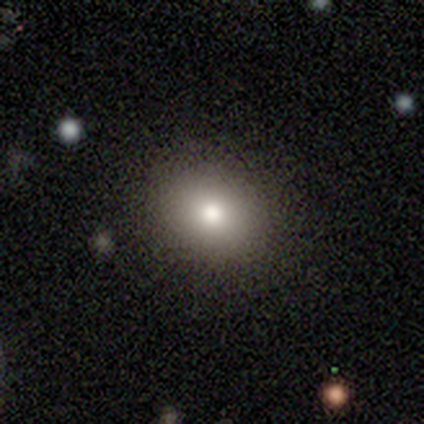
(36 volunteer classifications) Overall: smooth (83%). How rounded: round (70%; in between 30%). Merging: none (91%).